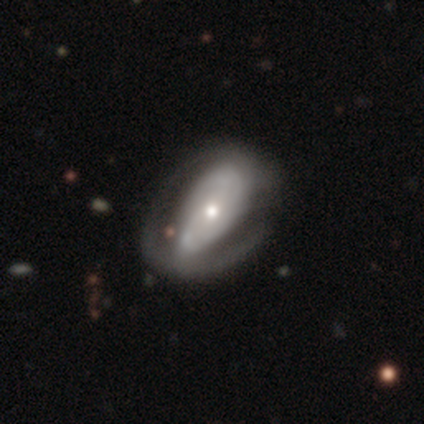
This appears to be a smooth galaxy with no disk features (50%, tied with featured or disk) that is in between round and cigar-shaped (67%). Merging: major disturbance (50%).